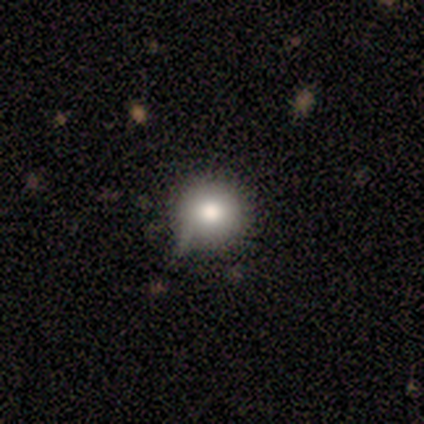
This appears to be a smooth galaxy with no disk features (80%) that is round (100%). Merging: none (60%).